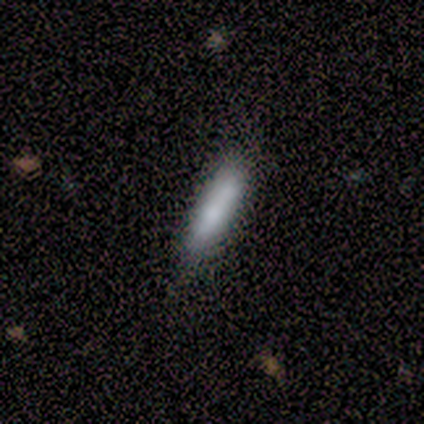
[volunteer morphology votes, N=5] Smooth or featured? smooth (100%)
How rounded? cigar-shaped (100%)
Merging? none (100%)